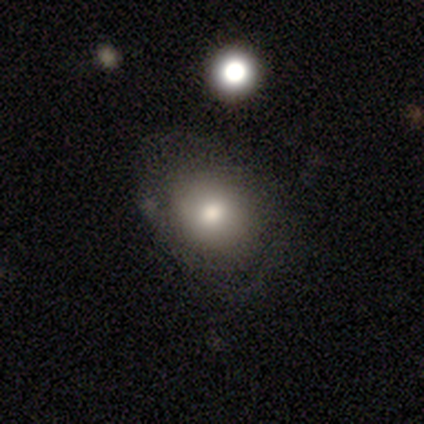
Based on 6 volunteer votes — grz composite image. It shows a smooth galaxy with no disk features (50%) that is round (67%). Merging: minor disturbance (50%).